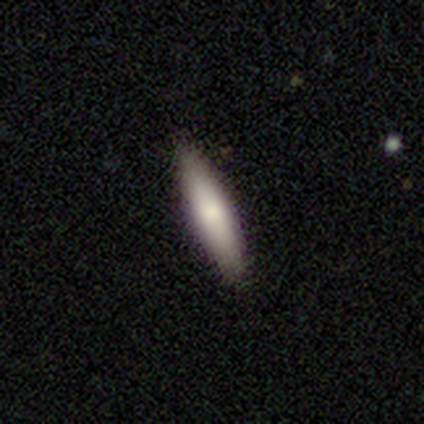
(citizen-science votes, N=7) Volunteers were most divided on "how rounded": cigar-shaped: 71%, in between: 29%, round: 0%. More confident: smooth or featured — smooth (100%); merging — none (100%).